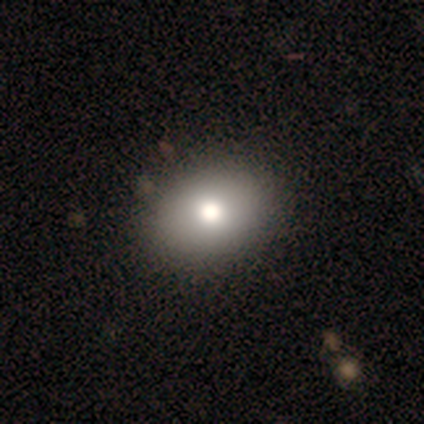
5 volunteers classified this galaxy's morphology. Overall: smooth (80%). How rounded: in between (75%). Merging: none (100%).